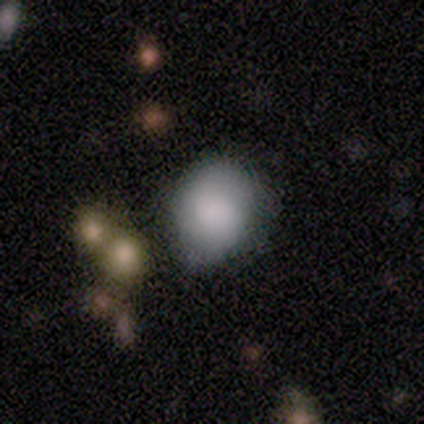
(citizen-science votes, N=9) smooth_or_featured: smooth (p=0.78) [alt: featured or disk p=0.11]
how_rounded: in between (p=0.57) [alt: round p=0.43]
merging: none (p=0.50) [alt: minor disturbance p=0.25]